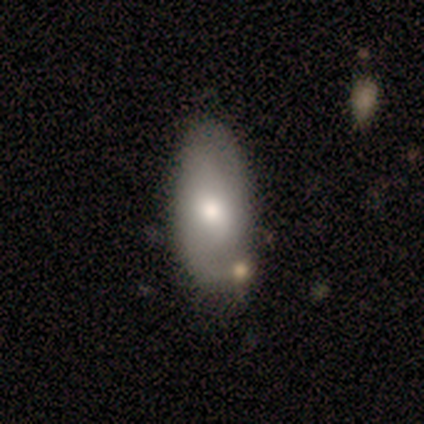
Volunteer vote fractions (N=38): smooth_or_featured: smooth (p=0.55) [alt: featured or disk p=0.39]
how_rounded: in between (p=0.95) [alt: cigar-shaped p=0.05]
merging: none (p=0.47) [alt: minor disturbance p=0.14]